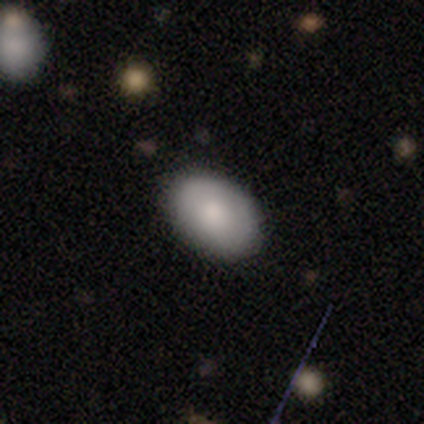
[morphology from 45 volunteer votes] smooth 89%, featured or disk 9%, star or artifact 2%. Down the decision tree: how rounded — in between (85%); merging — none (86%).